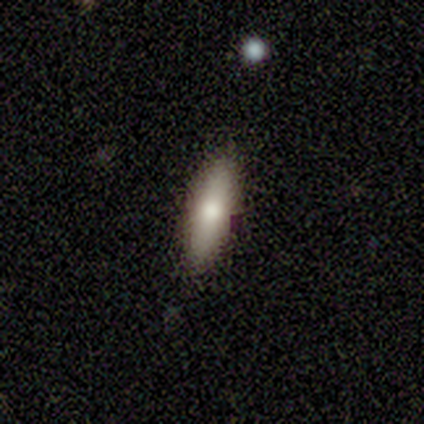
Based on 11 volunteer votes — Overall: smooth (45%, tied with featured or disk). How rounded: cigar-shaped (60%; in between 40%). Merging: none (100%).